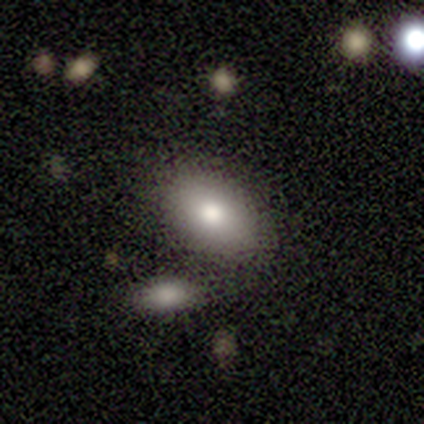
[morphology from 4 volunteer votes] smooth_or_featured: smooth (p=0.75) [alt: featured or disk p=0.25]
how_rounded: in between (p=1.00)
merging: none (p=0.50) [tied with: merger p=0.50]